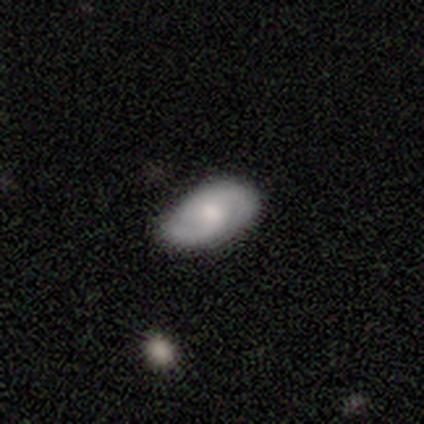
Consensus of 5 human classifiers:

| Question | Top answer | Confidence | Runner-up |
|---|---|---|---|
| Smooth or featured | featured or disk | 60% | smooth (40%) |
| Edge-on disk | no | 100% | — |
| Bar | weak | 67% | no (33%) |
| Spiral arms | yes | 100% | — |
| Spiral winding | tight | 33% | tied: medium (33%), loose (33%) |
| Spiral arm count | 2 | 100% | — |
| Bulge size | moderate | 100% | — |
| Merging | none | 80% | minor disturbance (20%) |